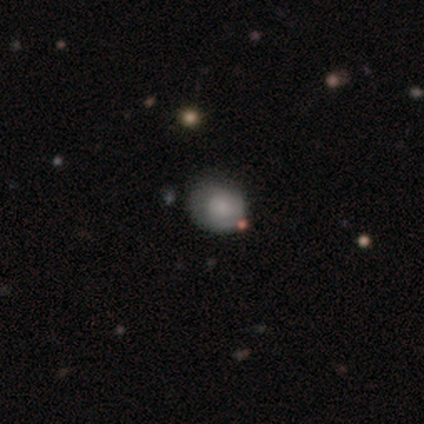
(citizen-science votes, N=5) Smooth or featured? featured or disk (60%)
Edge-on disk? no (100%)
Bar? no (100%)
Spiral arms? yes (67%)
Spiral winding? tight (50%, tied with loose)
Spiral arm count? 2 (100%)
Bulge size? moderate (67%)
Merging? none (60%)